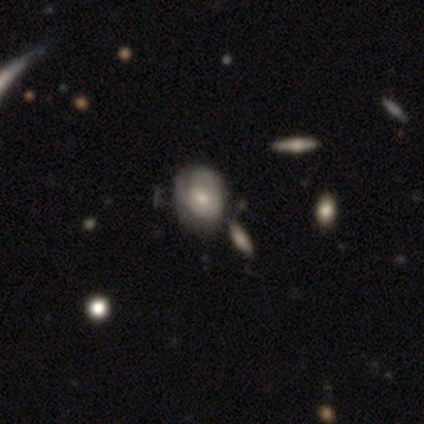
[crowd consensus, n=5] Smooth or featured?
  - smooth: 80% *
  - featured or disk: 20%
  - star or artifact: 0%
How rounded?
  - round: 75% *
  - in between: 25%
  - cigar-shaped: 0%
Merging?
  - none: 40% * (tied)
  - merger: 40% * (tied)
  - major disturbance: 20%
  - minor disturbance: 0%